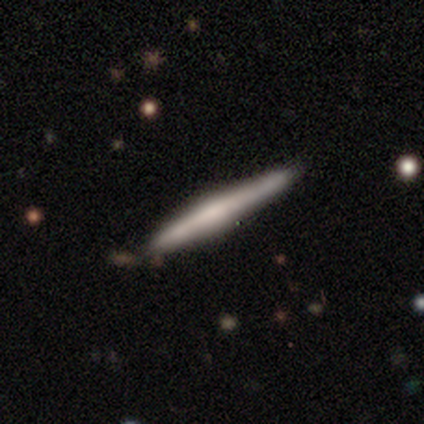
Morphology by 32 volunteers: Q: Smooth or featured?
A: featured or disk (47%); runner-up: smooth (44%)
Q: Edge-on disk?
A: yes (100%)
Q: Edge-on bulge?
A: none (47%); runner-up: rounded (40%)
Q: Merging?
A: none (79%); runner-up: minor disturbance (21%)